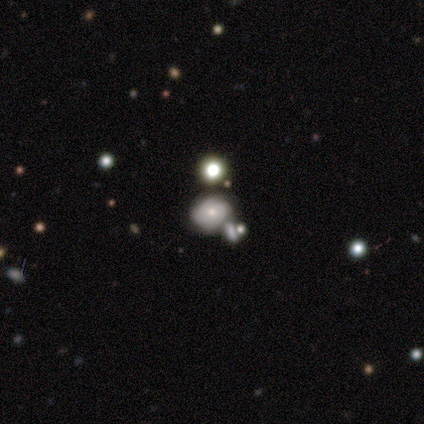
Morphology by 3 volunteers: This is likely a featured or disk galaxy (67%). It is clearly not viewed edge-on (100%). Bar: possibly weak (50%, tied with no). Spiral arm pattern: clearly no (100%). Central bulge: possibly large (50%, tied with small). Merging: clearly none (100%).